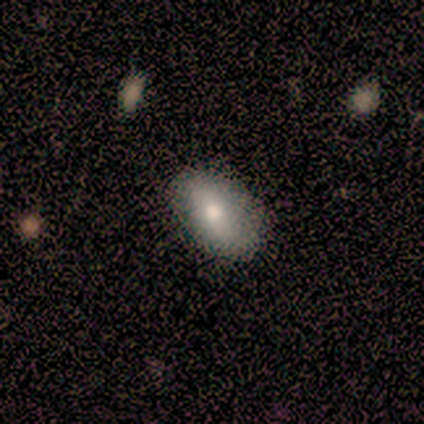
A smooth galaxy with no disk features (100%) that is in between round and cigar-shaped (100%). Merging: none (80%).